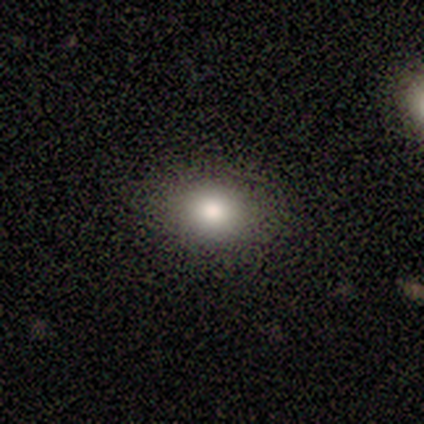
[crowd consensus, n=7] Volunteers were most divided on "how rounded": in between: 67%, round: 33%, cigar-shaped: 0%. More confident: merging — none (100%); smooth or featured — smooth (86%).